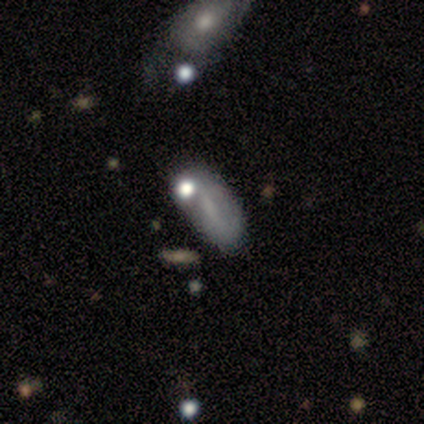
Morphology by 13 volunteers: A smooth galaxy with no disk features (46%) that is in between round and cigar-shaped (83%).

Vote fractions:
- Smooth or featured? smooth: 46% / featured or disk: 38% / star or artifact: 15%
- How rounded? in between: 83% / cigar-shaped: 17% / round: 0%
- Merging? none: 45% / major disturbance: 36% / minor disturbance: 18% / merger: 0%